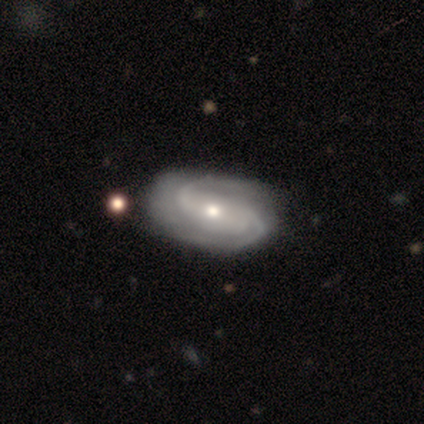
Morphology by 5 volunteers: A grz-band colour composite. It shows a featured or disk galaxy (60%) with no bar (100%), 2 (100%) medium (67%) spiral arms (100%) and a moderate central bulge (67%). Merging: none (75%).